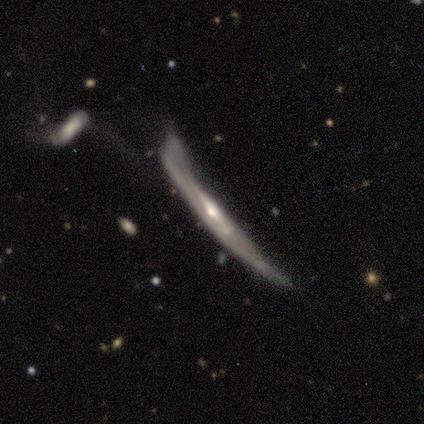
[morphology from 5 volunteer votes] featured or disk 100%, smooth 0%, star or artifact 0%. Down the decision tree: edge-on disk — yes (80%); edge-on bulge — rounded (50%); merging — minor disturbance (40%, tied with merger).